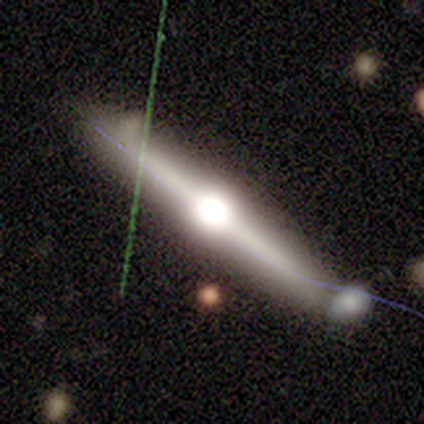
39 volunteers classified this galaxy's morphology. Q: Smooth or featured?
A: featured or disk (79%); runner-up: smooth (13%)
Q: Edge-on disk?
A: yes (100%)
Q: Edge-on bulge?
A: rounded (97%); runner-up: boxy (3%)
Q: Merging?
A: none (64%); runner-up: minor disturbance (17%)